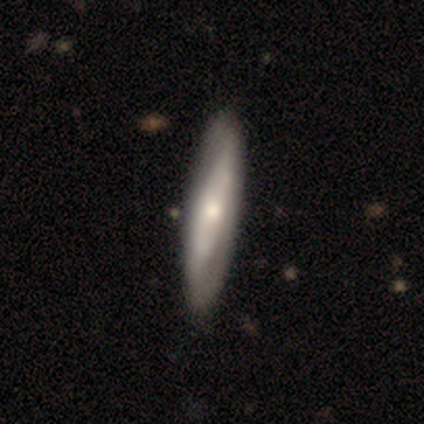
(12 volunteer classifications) This appears to be a smooth galaxy with no disk features (67%) that is cigar-shaped (100%). Merging: none (100%).